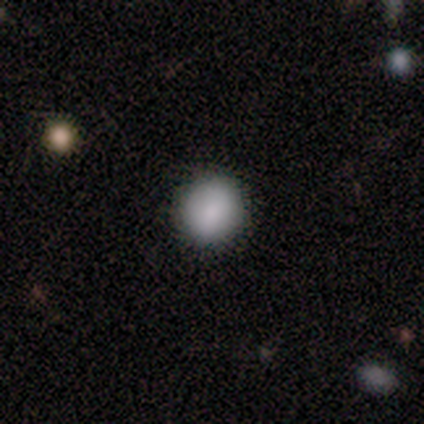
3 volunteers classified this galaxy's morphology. type=smooth (67%); roundness=round (50%, tied with in between); merging=none (50%, tied with minor disturbance).